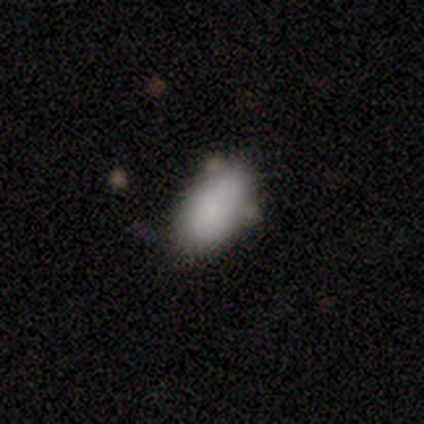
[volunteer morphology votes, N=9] Volunteers were most divided on "merging": none: 62%, minor disturbance: 38%, major disturbance: 0%, merger: 0%. More confident: how rounded — in between (100%); smooth or featured — smooth (89%).